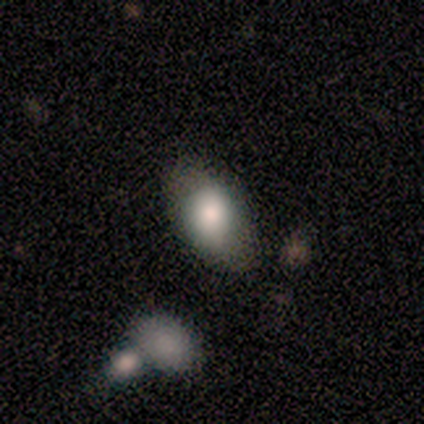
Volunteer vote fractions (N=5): Smooth or featured? smooth (80%)
How rounded? in between (100%)
Merging? none (80%)